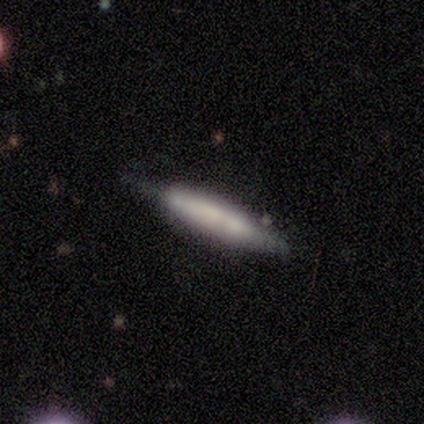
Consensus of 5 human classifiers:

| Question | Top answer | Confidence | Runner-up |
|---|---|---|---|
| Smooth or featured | smooth | 60% | featured or disk (40%) |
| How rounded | cigar-shaped | 100% | — |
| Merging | minor disturbance | 60% | none (40%) |